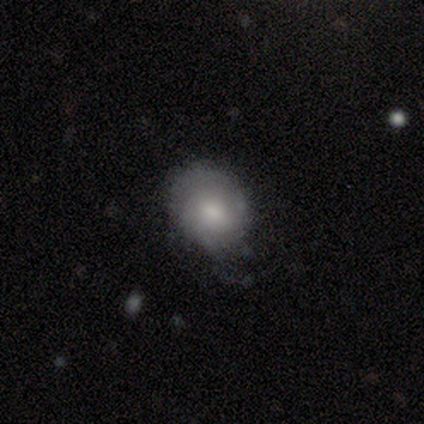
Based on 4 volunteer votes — Overall: featured or disk (50%; smooth 25%). Edge-on disk: no (100%). Bar: weak (50%, tied with no). Spiral arms: yes (100%). Spiral arm count: 2 (100%). Spiral winding: tight (100%). Bulge size: large (100%). Merging: minor disturbance (67%; none 33%).